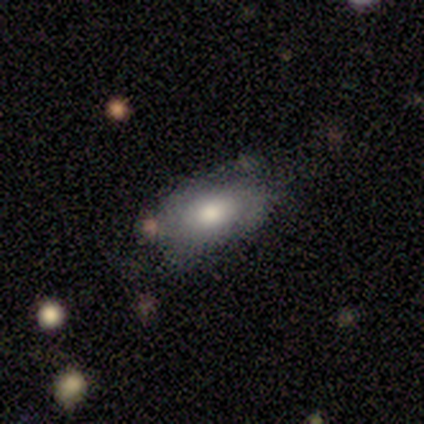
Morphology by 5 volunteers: smooth 100%, featured or disk 0%, star or artifact 0%. Down the decision tree: how rounded — in between (60%); merging — none (60%).